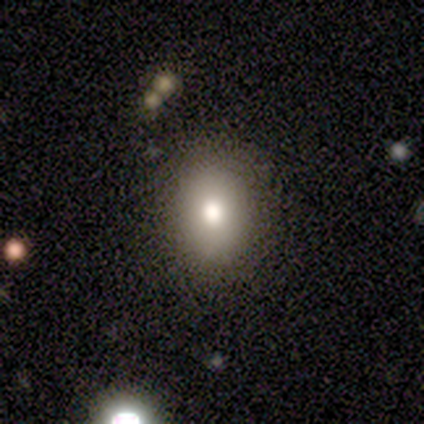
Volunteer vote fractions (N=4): Q: Smooth or featured?
A: smooth (75%); runner-up: featured or disk (25%)
Q: How rounded?
A: in between (67%); runner-up: round (33%)
Q: Merging?
A: none (100%)